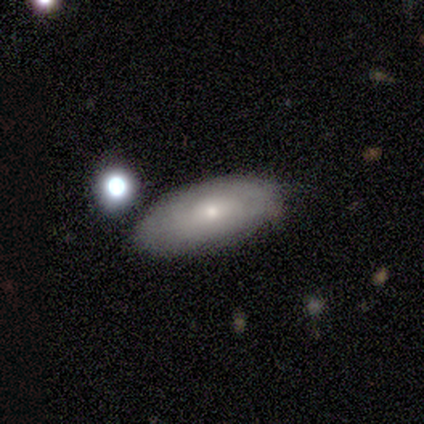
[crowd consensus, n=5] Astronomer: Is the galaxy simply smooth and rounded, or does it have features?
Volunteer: smooth — 40%, tied with featured or disk at 40%.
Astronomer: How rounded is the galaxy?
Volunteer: in between — 100%.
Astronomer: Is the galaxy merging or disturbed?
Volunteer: none — 100%.